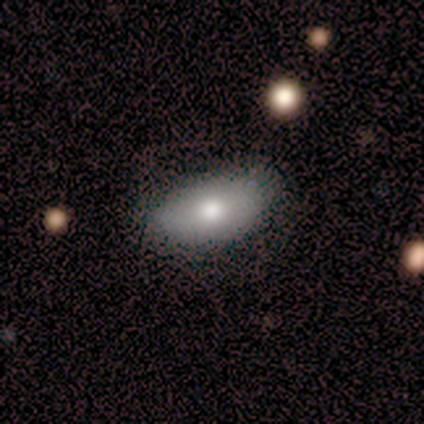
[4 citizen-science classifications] Smooth or featured? smooth (100%)
How rounded? in between (100%)
Merging? none (75%)